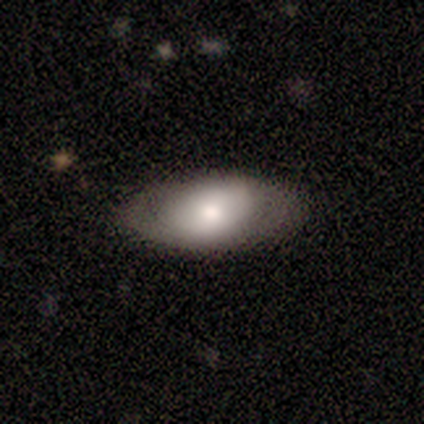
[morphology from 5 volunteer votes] A featured or disk galaxy (60%) with no bar (67%), no spiral arms (100%) and a moderate central bulge (100%).

Vote fractions:
- Smooth or featured? featured or disk: 60% / smooth: 40% / star or artifact: 0%
- Edge-on disk? no: 100% / yes: 0%
- Bar? no: 67% / weak: 33% / strong: 0%
- Spiral arms? no: 100% / yes: 0%
- Bulge size? moderate: 100% / dominant: 0% / large: 0% / small: 0% / none: 0%
- Merging? none: 100% / minor disturbance: 0% / major disturbance: 0% / merger: 0%